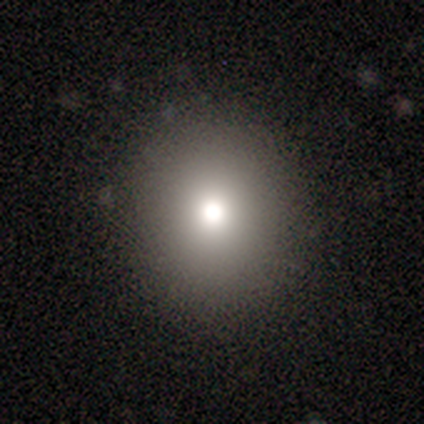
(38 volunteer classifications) This appears to be a smooth galaxy with no disk features (76%) that is round (76%). Merging: none (97%).